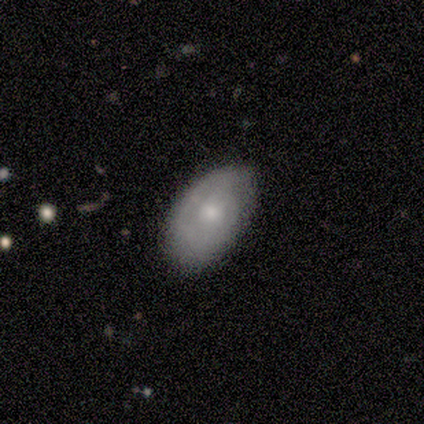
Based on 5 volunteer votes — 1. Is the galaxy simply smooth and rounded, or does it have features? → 60% featured or disk, 20% smooth, 20% star or artifact.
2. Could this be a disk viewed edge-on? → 100% no, 0% yes.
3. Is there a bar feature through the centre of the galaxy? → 100% no, 0% strong, 0% weak.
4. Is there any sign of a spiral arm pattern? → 67% yes, 33% no.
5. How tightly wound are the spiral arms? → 50% tight (tied), 50% medium (tied), 0% loose.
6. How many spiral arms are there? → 50% 2 (tied), 50% can't tell (tied), 0% 1, 0% 3, 0% 4, 0% more than 4.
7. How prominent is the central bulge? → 67% moderate, 33% small, 0% dominant, 0% large, 0% none.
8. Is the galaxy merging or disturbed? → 75% none, 25% minor disturbance, 0% major disturbance, 0% merger.